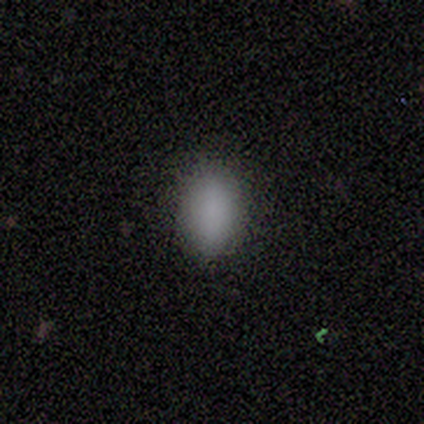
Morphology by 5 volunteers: Smooth or featured? 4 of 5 (80%) said smooth. How rounded? 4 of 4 (100%) said in between. Merging? 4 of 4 (100%) said none.